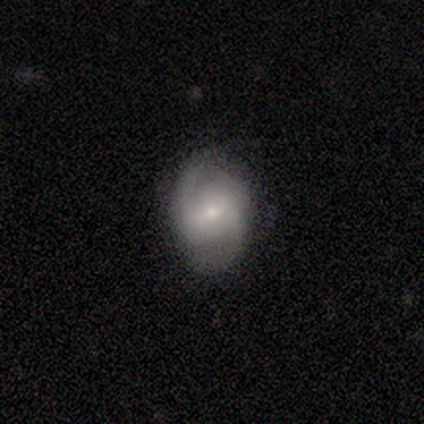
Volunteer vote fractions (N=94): A featured or disk galaxy (65%) with a weak bar (51%), 2 (74%) medium (57%) spiral arms (95%) and a small central bulge (70%). Merging: none (76%).